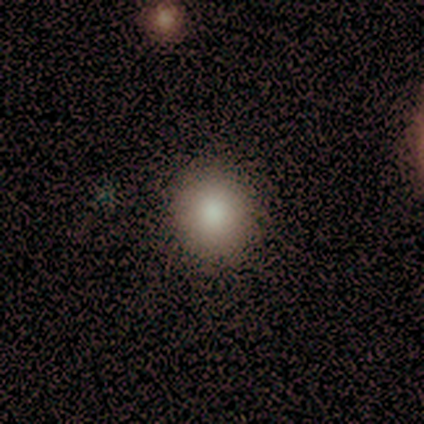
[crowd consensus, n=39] smooth_or_featured: smooth (p=0.85) [alt: featured or disk p=0.08]
how_rounded: round (p=0.70) [alt: in between p=0.30]
merging: none (p=0.83) [alt: minor disturbance p=0.14]